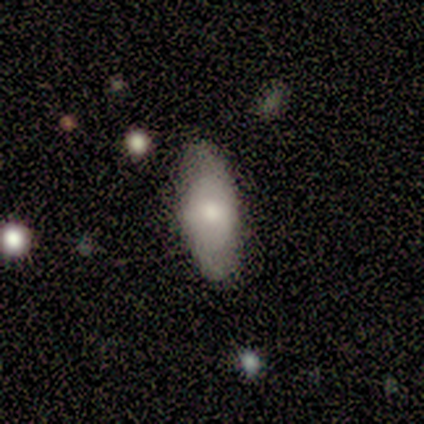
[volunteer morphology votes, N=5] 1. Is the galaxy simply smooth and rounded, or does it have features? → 60% featured or disk, 20% smooth, 20% star or artifact.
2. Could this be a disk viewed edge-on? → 67% yes, 33% no.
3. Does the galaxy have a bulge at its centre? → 100% rounded, 0% boxy, 0% none.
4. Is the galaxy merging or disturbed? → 75% none, 25% minor disturbance, 0% major disturbance, 0% merger.